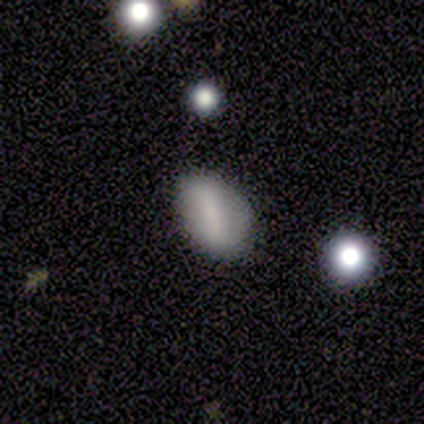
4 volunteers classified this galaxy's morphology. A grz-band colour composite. It shows a smooth galaxy with no disk features (75%) that is in between round and cigar-shaped (100%). Merging: minor disturbance (50%).